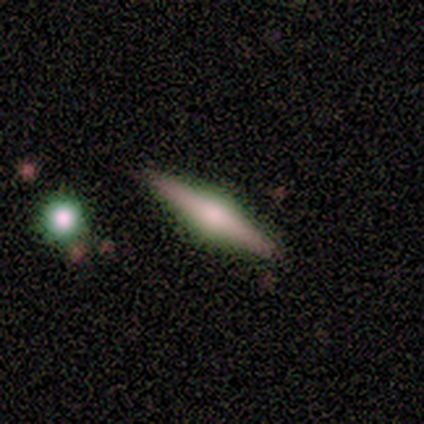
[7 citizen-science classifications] A featured or disk galaxy (86%) viewed edge-on (100%) with a rounded central bulge (83%). Merging: none (86%).